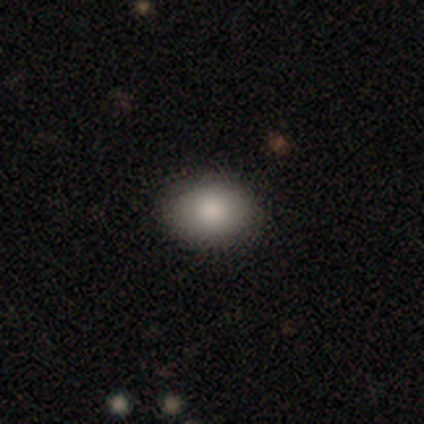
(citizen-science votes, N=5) Morphology: type=smooth (80%); roundness=in between (100%); merging=none (100%).